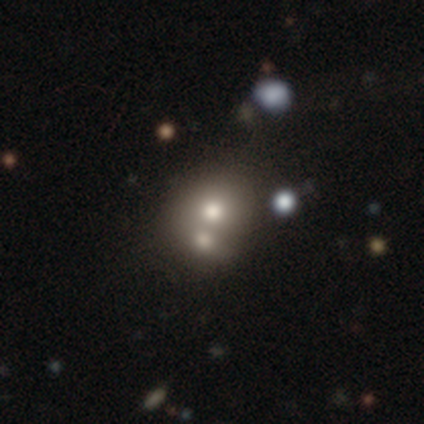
smooth_or_featured: smooth (p=0.66) [alt: featured or disk p=0.21]
how_rounded: round (p=0.92) [alt: in between p=0.08]
merging: merger (p=0.55) [alt: none p=0.36]